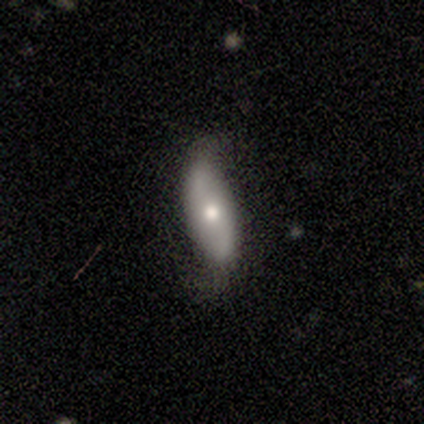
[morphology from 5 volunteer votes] A smooth galaxy with no disk features (80%) that is in between round and cigar-shaped (75%). Merging: minor disturbance (60%).